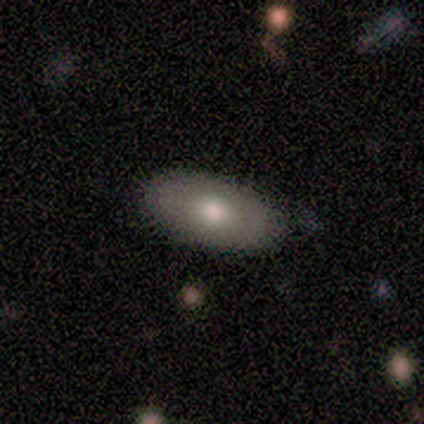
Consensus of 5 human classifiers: Smooth or featured? smooth (60%)
How rounded? in between (67%)
Merging? none (75%)